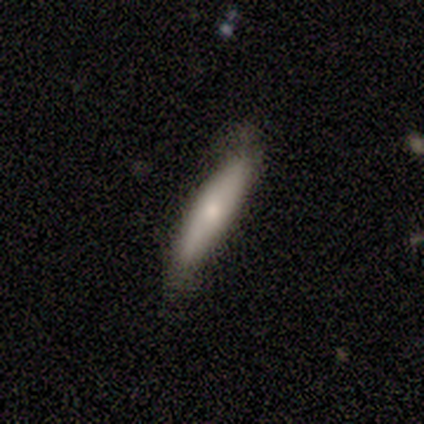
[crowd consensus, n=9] Volunteers were most divided on "smooth or featured": smooth: 67%, featured or disk: 33%, star or artifact: 0%. More confident: how rounded — cigar-shaped (83%); merging — none (78%).